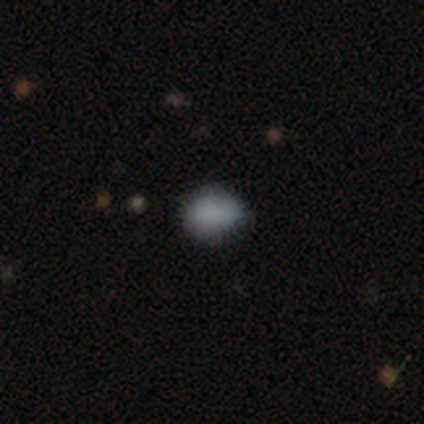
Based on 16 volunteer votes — Smooth or featured: smooth — 88% (star or artifact — 12%)
How rounded: in between — 57% (round — 43%)
Merging: none — 79% (minor disturbance — 21%)